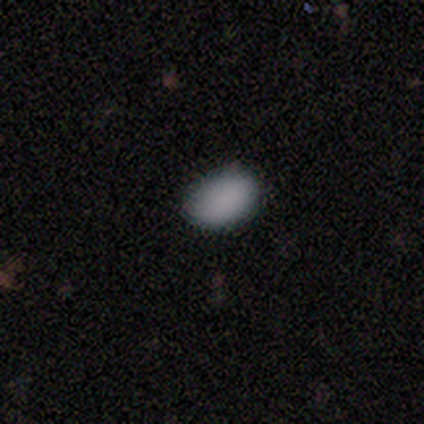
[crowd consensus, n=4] Q: Smooth or featured?
A: smooth (75%); runner-up: star or artifact (25%)
Q: How rounded?
A: in between (100%)
Q: Merging?
A: none (100%)